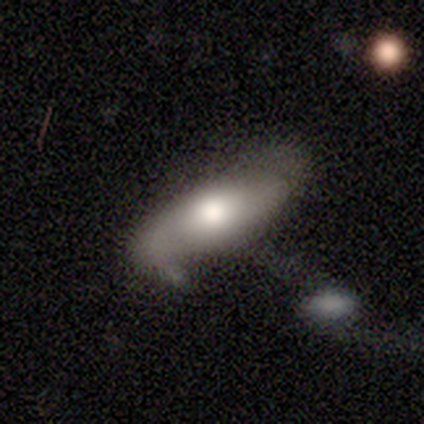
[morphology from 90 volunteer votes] Q: Smooth or featured?
A: smooth (49%); runner-up: featured or disk (46%)
Q: How rounded?
A: in between (77%); runner-up: cigar-shaped (18%)
Q: Merging?
A: none (42%); runner-up: minor disturbance (24%)